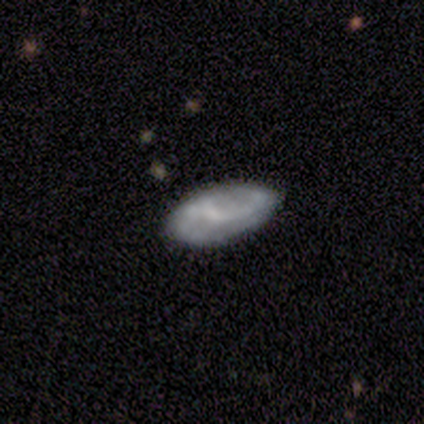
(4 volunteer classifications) Smooth or featured?
  - smooth: 50% * (tied)
  - featured or disk: 50% * (tied)
  - star or artifact: 0%
How rounded?
  - in between: 100% *
  - round: 0%
  - cigar-shaped: 0%
Merging?
  - none: 75% *
  - minor disturbance: 25%
  - major disturbance: 0%
  - merger: 0%